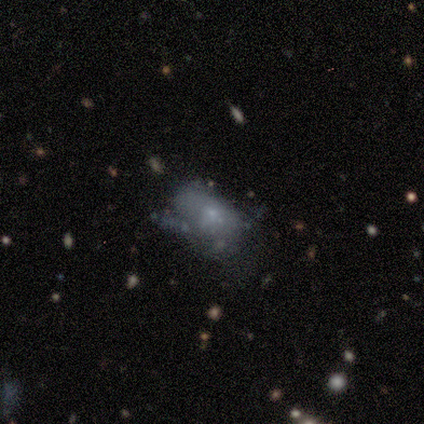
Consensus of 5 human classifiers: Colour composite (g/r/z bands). It shows a smooth galaxy with no disk features (40%, tied with featured or disk) that is in between round and cigar-shaped (100%). Merging: major disturbance (75%).